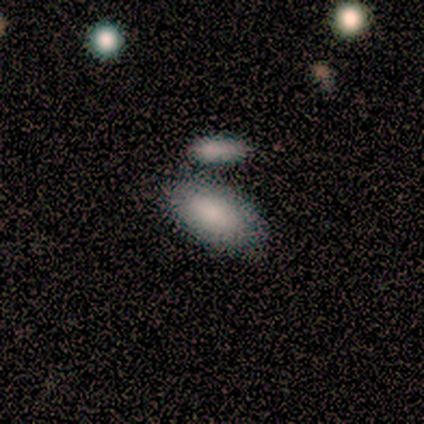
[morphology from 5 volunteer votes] Volunteers were most divided on "merging": merger: 60%, none: 40%, minor disturbance: 0%, major disturbance: 0%. More confident: how rounded — in between (100%); smooth or featured — smooth (80%).